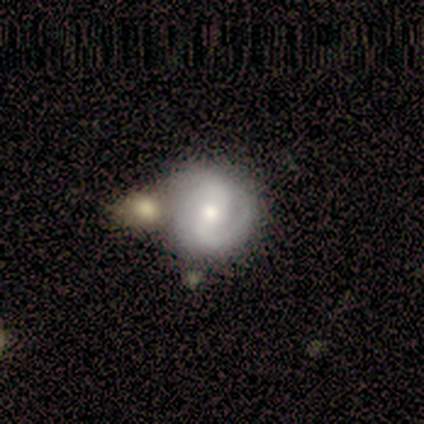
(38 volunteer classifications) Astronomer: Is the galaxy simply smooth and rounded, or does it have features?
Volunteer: featured or disk — 74%.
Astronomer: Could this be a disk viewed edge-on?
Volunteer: no — 93%.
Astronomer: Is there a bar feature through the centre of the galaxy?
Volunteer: no — 42% (runner-up: weak, 38%).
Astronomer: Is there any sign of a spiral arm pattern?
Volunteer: yes — 85%.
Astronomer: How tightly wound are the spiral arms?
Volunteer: tight — 59% (runner-up: medium, 41%).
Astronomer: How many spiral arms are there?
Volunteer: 2 — 95%.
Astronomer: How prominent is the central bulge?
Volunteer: moderate — 73%.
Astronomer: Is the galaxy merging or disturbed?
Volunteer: none — 50%.